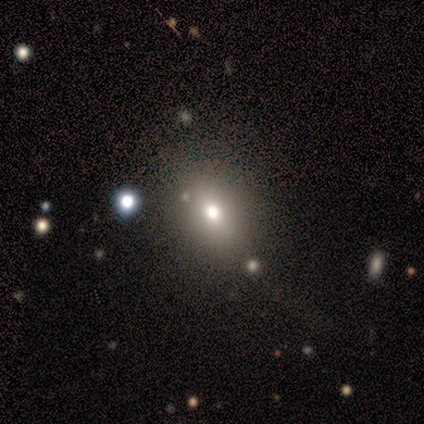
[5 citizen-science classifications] This is clearly a smooth galaxy (80%). How rounded: likely round (75%). Merging: likely none (75%).